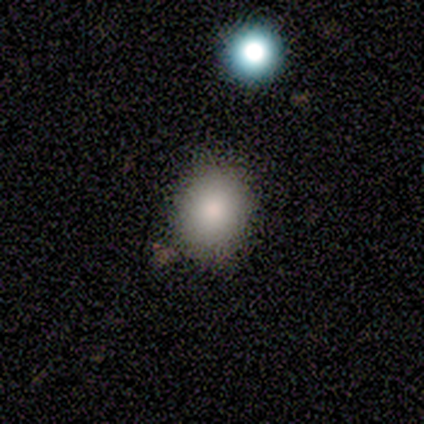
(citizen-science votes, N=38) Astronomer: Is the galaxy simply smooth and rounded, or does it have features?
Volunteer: smooth — 82%.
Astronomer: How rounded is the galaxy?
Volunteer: round — 61% (runner-up: in between, 39%).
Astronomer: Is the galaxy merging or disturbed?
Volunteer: none — 59%.